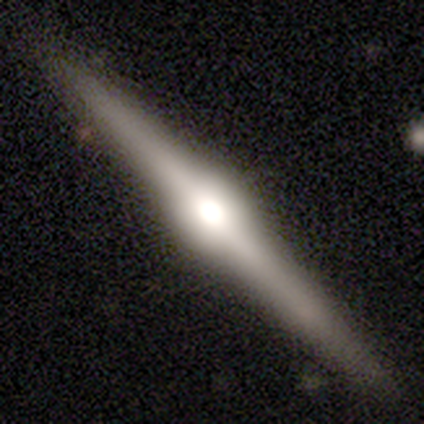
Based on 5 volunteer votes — Morphology: type=featured or disk (60%); edge-on=yes (67%); edge-on bulge=rounded (100%); merging=none (80%).